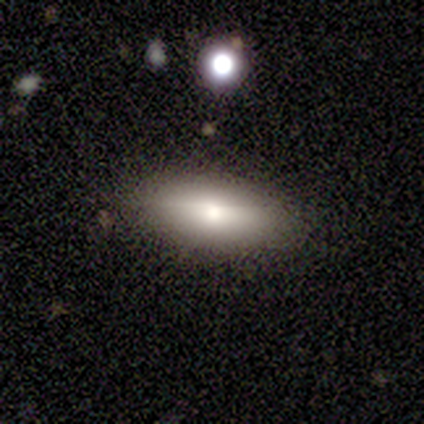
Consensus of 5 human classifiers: Volunteers were most divided on "how rounded": in between: 80%, cigar-shaped: 20%, round: 0%. More confident: smooth or featured — smooth (100%); merging — none (80%).